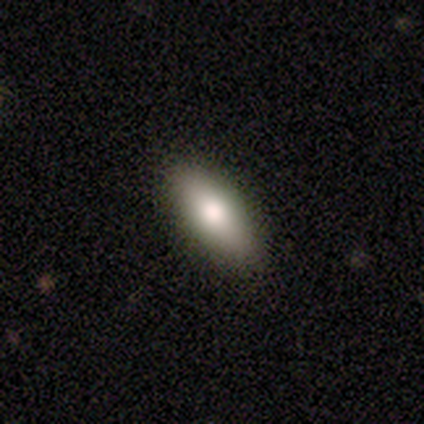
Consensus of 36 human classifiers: Smooth or featured?
  - smooth: 69% *
  - featured or disk: 22%
  - star or artifact: 8%
How rounded?
  - in between: 76% *
  - cigar-shaped: 24%
  - round: 0%
Merging?
  - none: 94% *
  - minor disturbance: 6%
  - major disturbance: 0%
  - merger: 0%